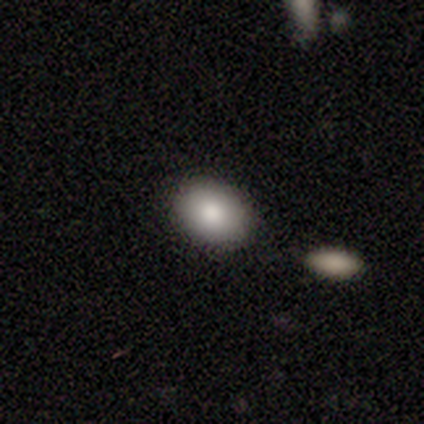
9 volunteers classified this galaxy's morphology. Overall: smooth (89%). How rounded: in between (88%). Merging: none (89%).